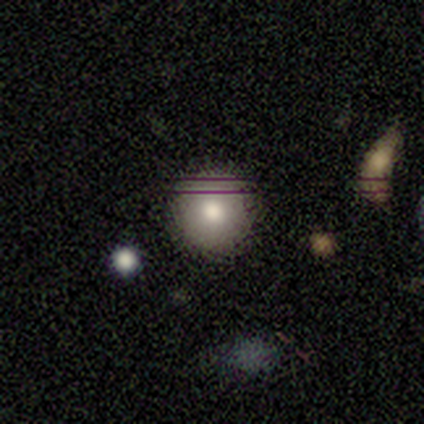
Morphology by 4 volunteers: A smooth galaxy with no disk features (75%) that is round (100%).

Vote fractions:
- Smooth or featured? smooth: 75% / featured or disk: 25% / star or artifact: 0%
- How rounded? round: 100% / in between: 0% / cigar-shaped: 0%
- Merging? none: 100% / minor disturbance: 0% / major disturbance: 0% / merger: 0%